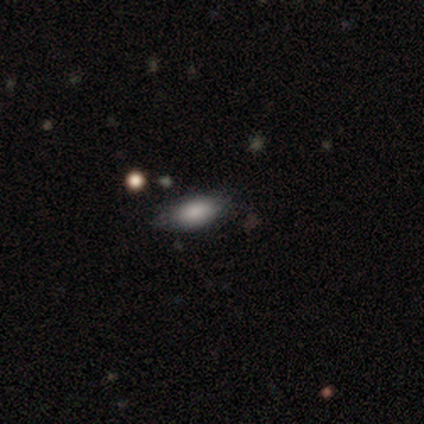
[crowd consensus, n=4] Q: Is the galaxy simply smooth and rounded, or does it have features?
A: smooth — 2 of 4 (50%, tied with featured or disk).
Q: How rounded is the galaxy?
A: in between — 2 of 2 (100%).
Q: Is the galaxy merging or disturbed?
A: none — 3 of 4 (75%).